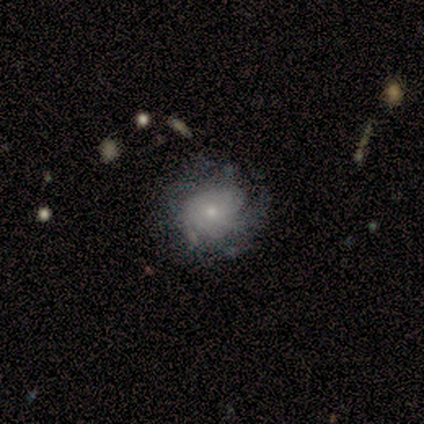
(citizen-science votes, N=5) Smooth or featured?
  - smooth: 80% *
  - featured or disk: 20%
  - star or artifact: 0%
How rounded?
  - round: 50% *
  - in between: 25%
  - cigar-shaped: 25%
Merging?
  - none: 60% *
  - minor disturbance: 40%
  - major disturbance: 0%
  - merger: 0%